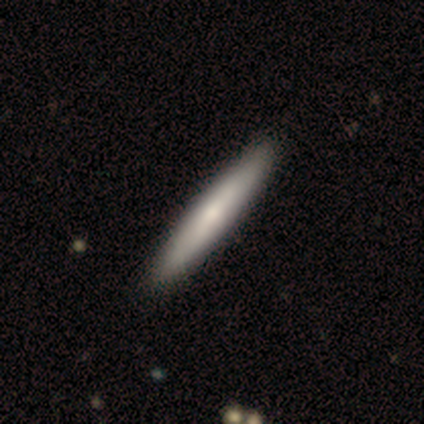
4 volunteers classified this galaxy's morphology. Smooth or featured? 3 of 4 (75%) said smooth. How rounded? 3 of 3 (100%) said cigar-shaped. Merging? 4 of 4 (100%) said none.